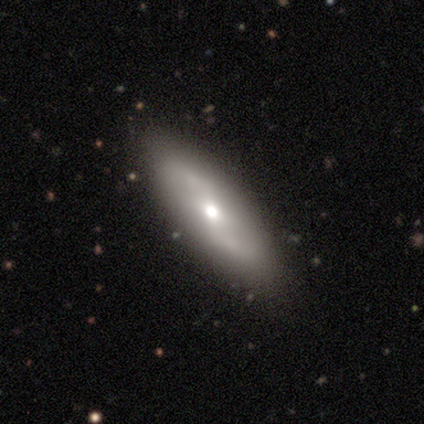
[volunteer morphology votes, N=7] This appears to be a smooth galaxy with no disk features (57%) that is cigar-shaped (100%). Merging: none (86%).